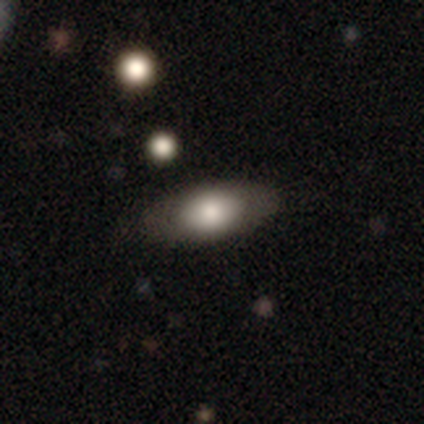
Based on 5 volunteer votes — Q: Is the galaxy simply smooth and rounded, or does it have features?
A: smooth — 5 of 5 (100%).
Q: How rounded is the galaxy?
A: in between — 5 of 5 (100%).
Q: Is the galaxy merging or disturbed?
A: none — 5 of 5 (100%).